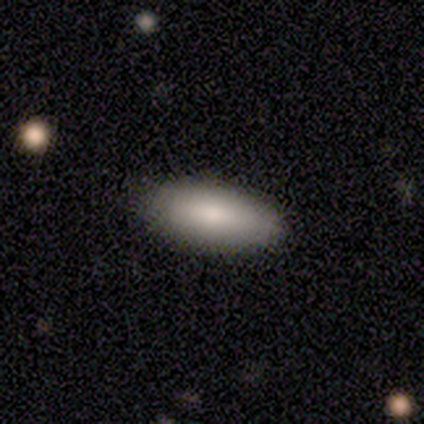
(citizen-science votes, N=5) Smooth or featured? 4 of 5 (80%) said smooth. How rounded? 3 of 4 (75%) said in between. Merging? 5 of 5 (100%) said none.